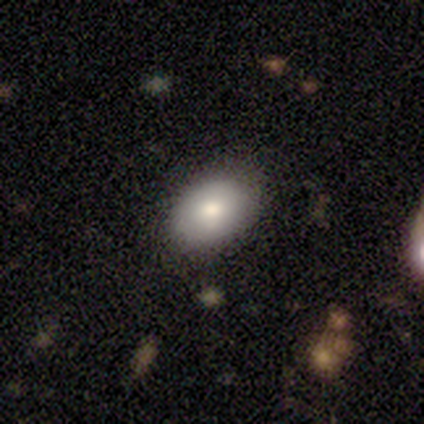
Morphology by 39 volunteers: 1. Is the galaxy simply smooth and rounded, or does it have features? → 79% smooth, 15% featured or disk, 5% star or artifact.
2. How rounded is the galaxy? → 81% in between, 16% round, 3% cigar-shaped.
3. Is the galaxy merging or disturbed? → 76% none, 16% minor disturbance, 8% major disturbance, 0% merger.